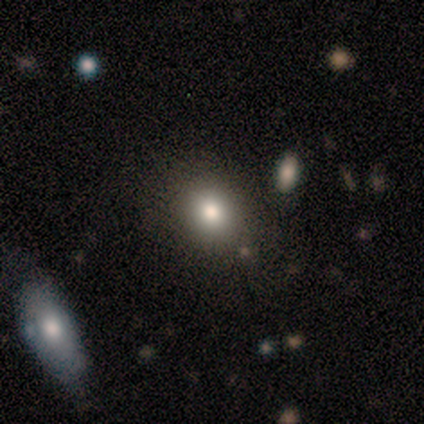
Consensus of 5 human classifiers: smooth-or-featured: star or artifact: 60% | smooth: 40% | featured or disk: 0%